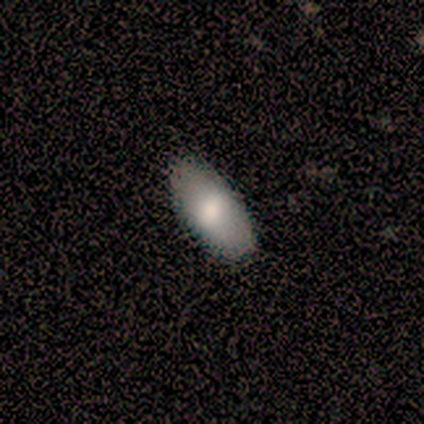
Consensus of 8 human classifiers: This appears to be a smooth galaxy with no disk features (100%) that is in between round and cigar-shaped (100%). Merging: none (100%).